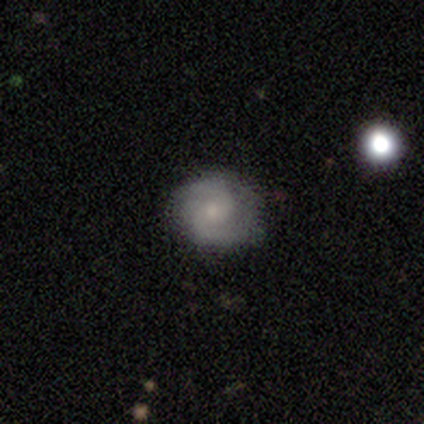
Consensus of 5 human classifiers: Overall: featured or disk (80%). Edge-on disk: no (100%). Bar: weak (75%). Spiral arms: yes (75%). Spiral arm count: 2 (100%). Spiral winding: loose (67%; tight 33%). Bulge size: small (75%). Merging: none (100%).